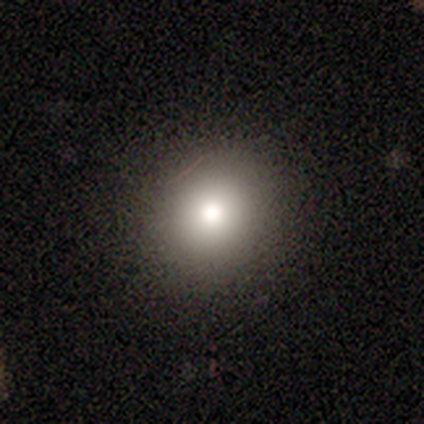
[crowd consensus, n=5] A smooth galaxy with no disk features (80%) that is round (75%).

Vote fractions:
- Smooth or featured? smooth: 80% / featured or disk: 20% / star or artifact: 0%
- How rounded? round: 75% / in between: 25% / cigar-shaped: 0%
- Merging? none: 100% / minor disturbance: 0% / major disturbance: 0% / merger: 0%